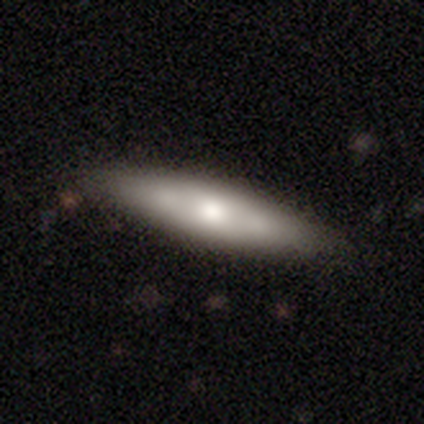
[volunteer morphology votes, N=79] Q: Smooth or featured?
A: smooth (57%); runner-up: featured or disk (42%)
Q: How rounded?
A: cigar-shaped (78%); runner-up: in between (22%)
Q: Merging?
A: none (37%); runner-up: minor disturbance (9%)